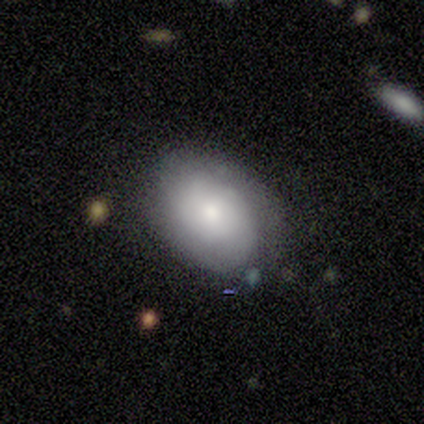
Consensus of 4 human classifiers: Smooth or featured?
  - smooth: 50% * (tied)
  - featured or disk: 50% * (tied)
  - star or artifact: 0%
How rounded?
  - round: 50% * (tied)
  - in between: 50% * (tied)
  - cigar-shaped: 0%
Merging?
  - none: 75% *
  - minor disturbance: 25%
  - major disturbance: 0%
  - merger: 0%